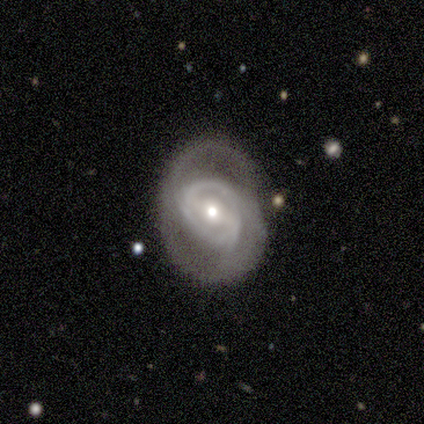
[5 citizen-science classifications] Overall: featured or disk (80%). Edge-on disk: no (100%). Bar: no (50%; strong 25%). Spiral arms: yes (75%). Spiral arm count: 3 (67%; 2 33%). Spiral winding: tight (67%; medium 33%). Bulge size: small (75%). Merging: none (40%, tied with minor disturbance).